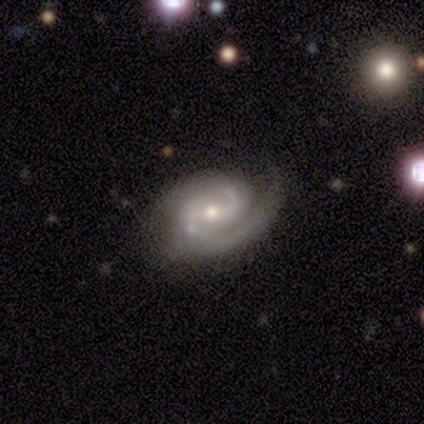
Smooth or featured? 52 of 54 (96%) said featured or disk. Edge-on disk? 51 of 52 (98%) said no. Bar? 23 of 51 (45%) said weak. Spiral arms? 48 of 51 (94%) said yes. Spiral winding? 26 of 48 (54%) said medium. Spiral arm count? 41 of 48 (85%) said 2. Bulge size? 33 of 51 (65%) said moderate. Merging? 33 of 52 (63%) said none.